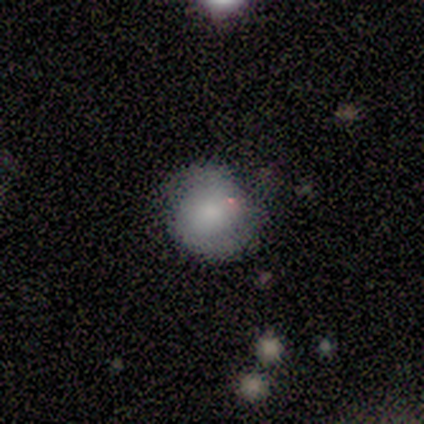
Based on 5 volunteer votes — Smooth or featured? smooth (60%)
How rounded? round (100%)
Merging? none (80%)